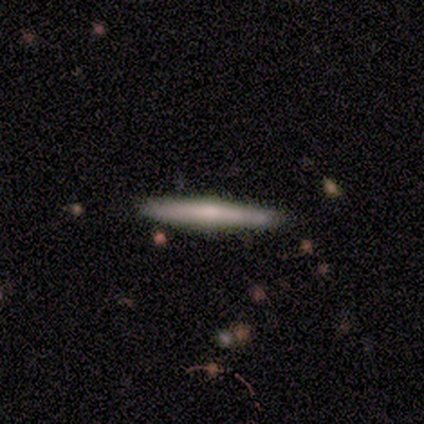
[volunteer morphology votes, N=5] This appears to be a featured or disk galaxy (80%) viewed edge-on (100%) with no central bulge (50%, tied with rounded). Merging: none (80%).